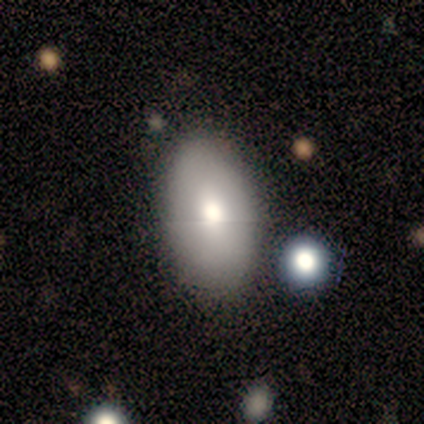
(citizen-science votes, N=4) Smooth or featured? smooth (50%)
How rounded? in between (50%, tied with cigar-shaped)
Merging? none (100%)